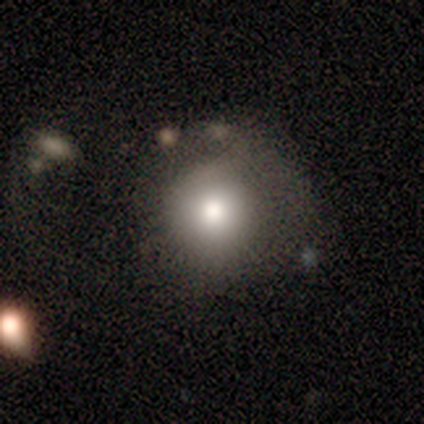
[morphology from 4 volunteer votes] smooth 75%, featured or disk 25%, star or artifact 0%. Down the decision tree: how rounded — round (100%); merging — none (100%).